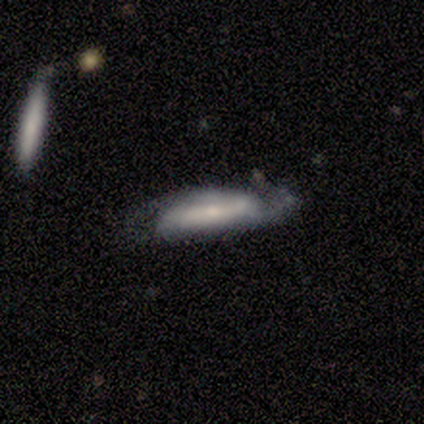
A featured or disk galaxy (60%) with a strong bar (50%, tied with weak), tight (100%) spiral arms (50%, tied with no) and a small central bulge (100%).

Vote fractions:
- Smooth or featured? featured or disk: 60% / smooth: 40% / star or artifact: 0%
- Edge-on disk? no: 67% / yes: 33%
- Bar? strong: 50% (tied) / weak: 50% (tied) / no: 0%
- Spiral arms? yes: 50% (tied) / no: 50% (tied)
- Spiral winding? tight: 100% / medium: 0% / loose: 0%
- Spiral arm count? can't tell: 100% / 1: 0% / 2: 0% / 3: 0% / 4: 0% / more than 4: 0%
- Bulge size? small: 100% / dominant: 0% / large: 0% / moderate: 0% / none: 0%
- Merging? minor disturbance: 60% / none: 20% / merger: 20% / major disturbance: 0%